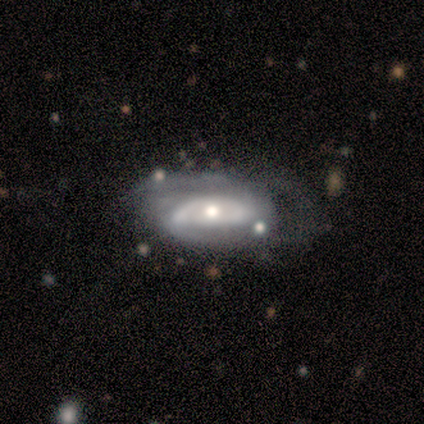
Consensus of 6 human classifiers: Overall: featured or disk (67%; smooth 33%). Edge-on disk: no (100%). Bar: no (75%). Spiral arms: yes (100%). Spiral arm count: 2 (50%; 3 25%). Spiral winding: tight (50%, tied with medium). Bulge size: moderate (100%). Merging: minor disturbance (67%).